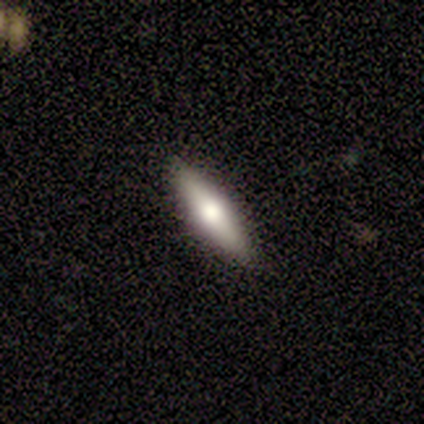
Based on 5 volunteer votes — A smooth galaxy with no disk features (40%, tied with featured or disk) that is cigar-shaped (100%). Merging: none (100%).